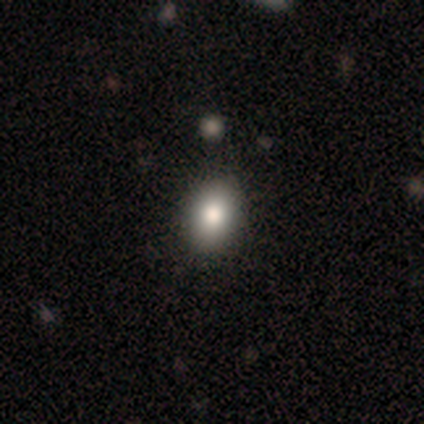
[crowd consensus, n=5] smooth-or-featured: smooth: 80% | featured or disk: 20% | star or artifact: 0%
  how-rounded: in between: 75% | round: 25% | cigar-shaped: 0%
  merging: none: 100% | minor disturbance: 0% | major disturbance: 0% | merger: 0%